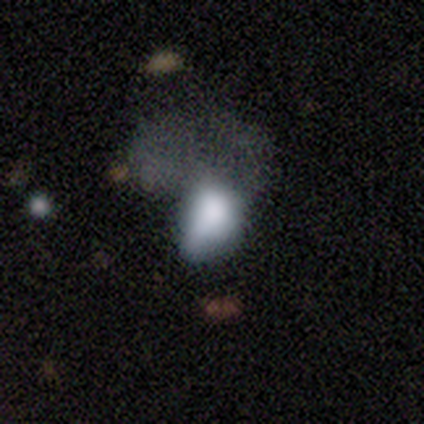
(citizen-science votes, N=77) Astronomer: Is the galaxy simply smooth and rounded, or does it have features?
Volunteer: smooth — 61%.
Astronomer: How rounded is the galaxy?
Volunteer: in between — 89%.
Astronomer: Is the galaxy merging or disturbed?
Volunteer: major disturbance — 41%.